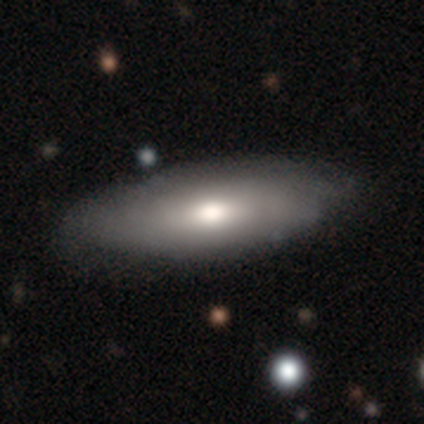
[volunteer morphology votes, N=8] Smooth or featured: smooth — 38% (tied with featured or disk — 38%)
How rounded: in between — 67% (round — 33%)
Merging: none — 67% (minor disturbance — 33%)